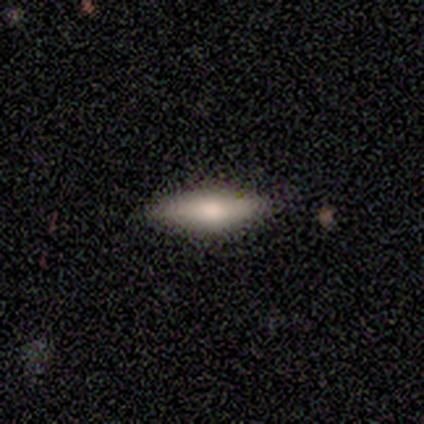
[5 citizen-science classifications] Volunteers were most divided on "how rounded": cigar-shaped: 75%, in between: 25%, round: 0%. More confident: smooth or featured — smooth (80%); merging — none (80%).